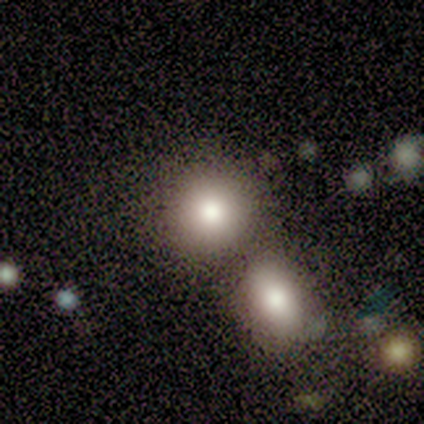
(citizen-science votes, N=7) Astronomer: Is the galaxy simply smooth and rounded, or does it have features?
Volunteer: smooth — 86%.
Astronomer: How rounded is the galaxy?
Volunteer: round — 100%.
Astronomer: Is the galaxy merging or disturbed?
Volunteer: none — 100%.